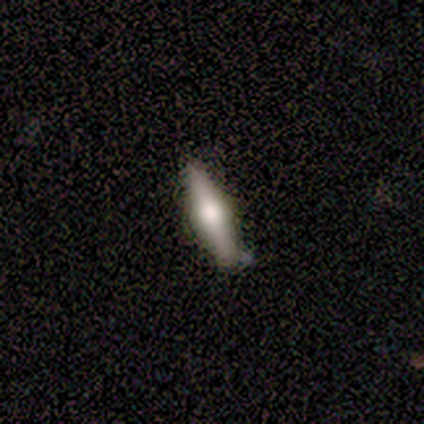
smooth_or_featured: featured or disk (p=0.60) [alt: smooth p=0.40]
disk_edge_on: yes (p=0.83) [alt: no p=0.17]
edge_on_bulge: rounded (p=1.00)
merging: none (p=0.80) [alt: minor disturbance p=0.20]